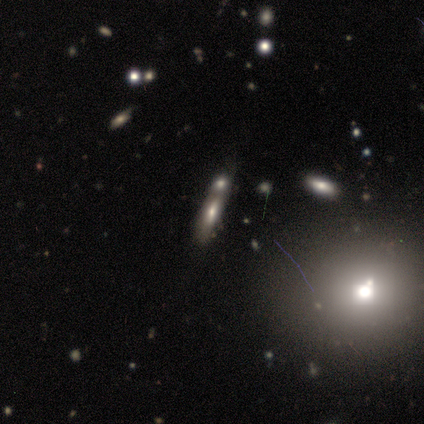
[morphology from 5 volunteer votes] Smooth or featured?
  - smooth: 80% *
  - featured or disk: 20%
  - star or artifact: 0%
How rounded?
  - in between: 50% * (tied)
  - cigar-shaped: 50% * (tied)
  - round: 0%
Merging?
  - merger: 60% *
  - minor disturbance: 40%
  - none: 0%
  - major disturbance: 0%